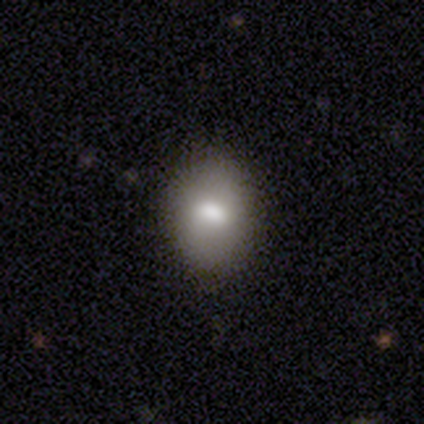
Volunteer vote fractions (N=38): Volunteers were most divided on "smooth or featured": smooth: 74%, featured or disk: 18%, star or artifact: 8%. More confident: merging — none (89%); how rounded — in between (86%).